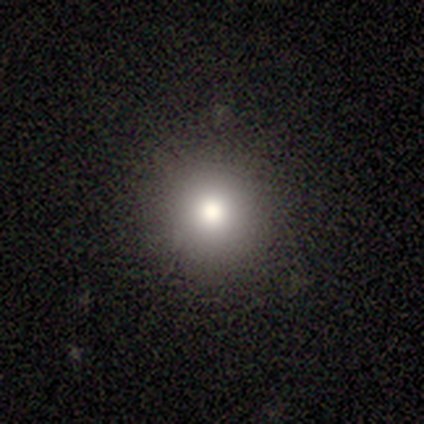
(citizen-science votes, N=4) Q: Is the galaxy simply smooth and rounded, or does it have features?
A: smooth — 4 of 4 (100%).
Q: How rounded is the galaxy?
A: round — 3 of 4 (75%).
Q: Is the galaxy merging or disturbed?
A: none — 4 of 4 (100%).